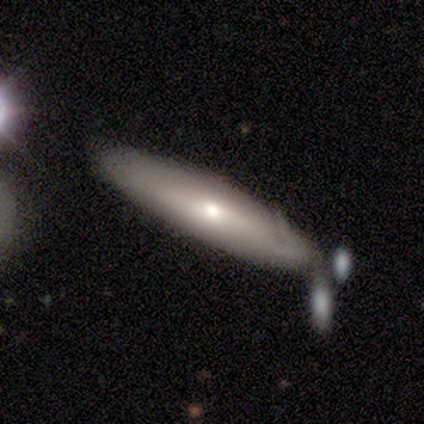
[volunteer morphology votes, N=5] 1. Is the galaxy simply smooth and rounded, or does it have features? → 60% smooth, 40% featured or disk, 0% star or artifact.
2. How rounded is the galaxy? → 67% cigar-shaped, 33% in between, 0% round.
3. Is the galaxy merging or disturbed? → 80% none, 20% merger, 0% minor disturbance, 0% major disturbance.